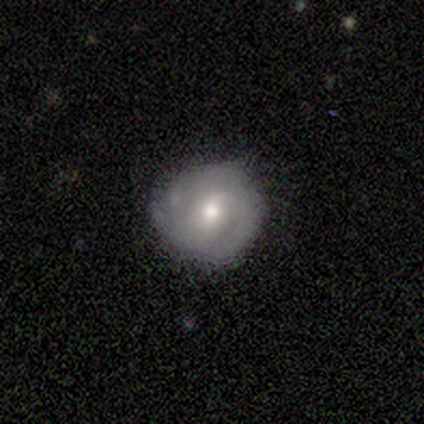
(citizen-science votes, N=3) A smooth galaxy with no disk features (67%) that is round (100%).

Vote fractions:
- Smooth or featured? smooth: 67% / featured or disk: 33% / star or artifact: 0%
- How rounded? round: 100% / in between: 0% / cigar-shaped: 0%
- Merging? minor disturbance: 67% / none: 33% / major disturbance: 0% / merger: 0%